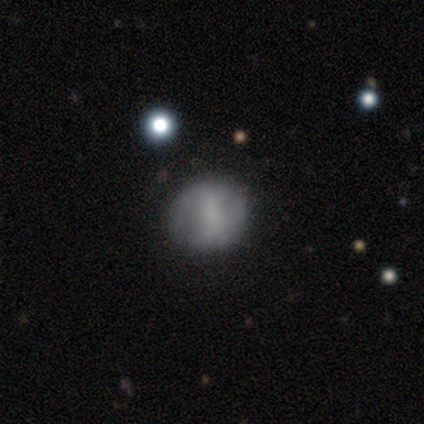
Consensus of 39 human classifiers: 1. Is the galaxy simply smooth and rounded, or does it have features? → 54% smooth, 33% featured or disk, 13% star or artifact.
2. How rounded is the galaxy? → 71% round, 24% in between, 5% cigar-shaped.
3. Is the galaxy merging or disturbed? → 71% none, 21% minor disturbance, 9% major disturbance, 0% merger.